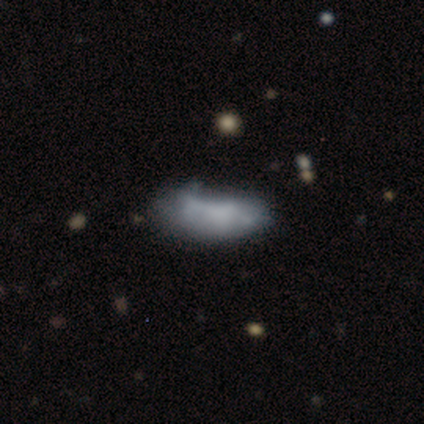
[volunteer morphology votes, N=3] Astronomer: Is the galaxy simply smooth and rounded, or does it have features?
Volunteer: smooth — 100%.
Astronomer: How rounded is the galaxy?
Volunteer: in between — 100%.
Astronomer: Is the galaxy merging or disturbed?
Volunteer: none — 33%, tied with minor disturbance and major disturbance at 33%.